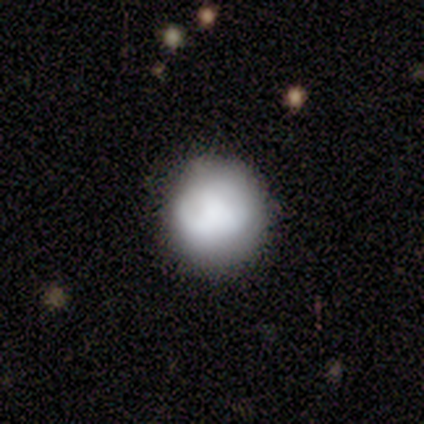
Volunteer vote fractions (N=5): Smooth or featured? smooth (100%)
How rounded? round (100%)
Merging? none (60%)